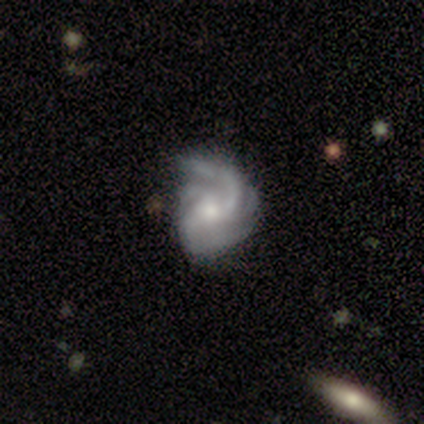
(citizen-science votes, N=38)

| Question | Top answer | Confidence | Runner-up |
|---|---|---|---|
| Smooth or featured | featured or disk | 87% | star or artifact (8%) |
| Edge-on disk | no | 100% | — |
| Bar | no | 67% | weak (27%) |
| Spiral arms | yes | 94% | no (6%) |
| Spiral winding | medium | 39% | tight (32%) |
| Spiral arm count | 4 | 35% | 3 (23%) |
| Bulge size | moderate | 52% | small (45%) |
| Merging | none | 37% | minor disturbance (23%) |